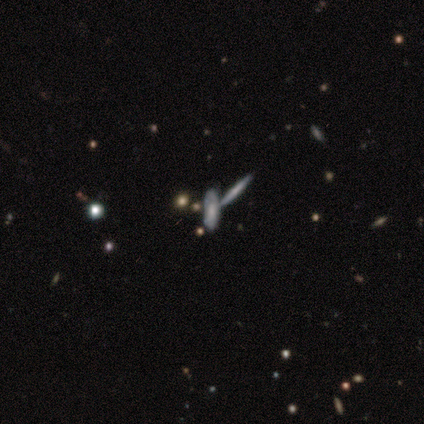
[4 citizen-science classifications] Smooth or featured? 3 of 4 (75%) said featured or disk. Edge-on disk? 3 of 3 (100%) said yes. Edge-on bulge? 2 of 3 (67%) said none. Merging? 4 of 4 (100%) said merger.